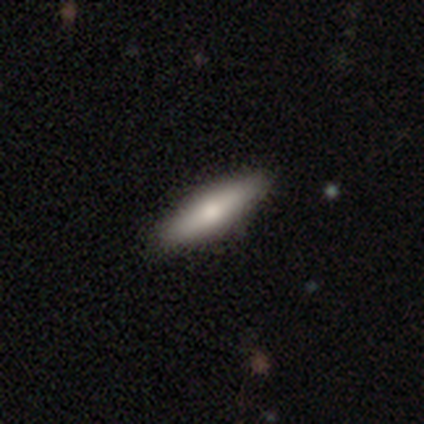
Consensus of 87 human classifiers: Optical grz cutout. It shows a smooth galaxy with no disk features (70%) that is cigar-shaped (75%). Merging: none (90%).